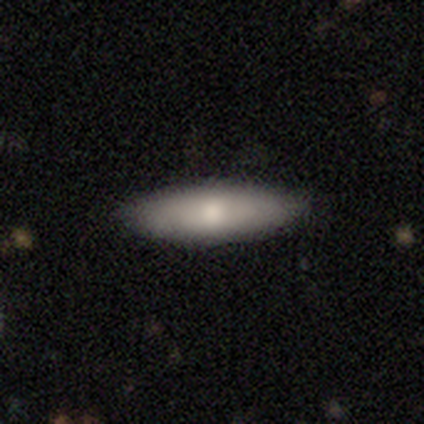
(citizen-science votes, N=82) This appears to be a smooth galaxy with no disk features (60%) that is cigar-shaped (51%). Merging: none (83%).